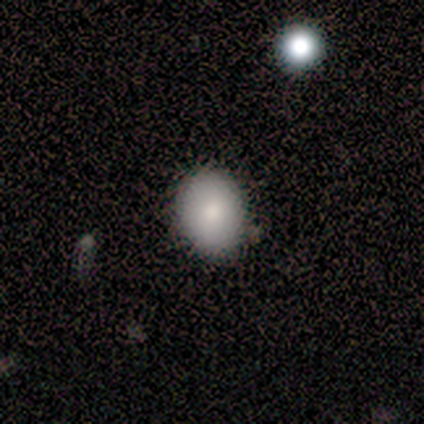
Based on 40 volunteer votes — Smooth or featured: smooth — 88% (star or artifact — 10%)
How rounded: in between — 66% (round — 34%)
Merging: none — 97% (minor disturbance — 3%)